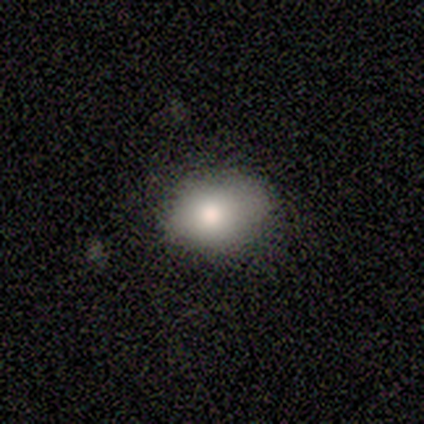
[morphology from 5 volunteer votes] Volunteers were most divided on "merging": minor disturbance: 60%, none: 40%, major disturbance: 0%, merger: 0%. More confident: smooth or featured — smooth (100%); how rounded — in between (100%).